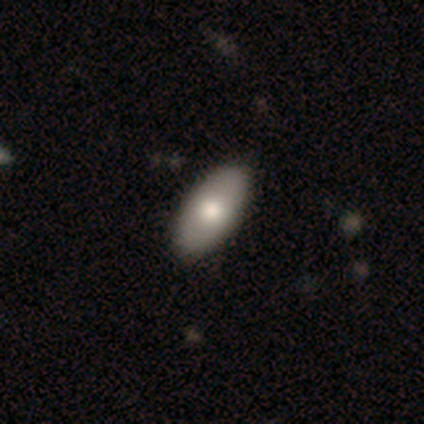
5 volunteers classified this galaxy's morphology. Smooth or featured?
  - smooth: 60% *
  - featured or disk: 40%
  - star or artifact: 0%
How rounded?
  - in between: 67% *
  - round: 33%
  - cigar-shaped: 0%
Merging?
  - none: 60% *
  - minor disturbance: 40%
  - major disturbance: 0%
  - merger: 0%